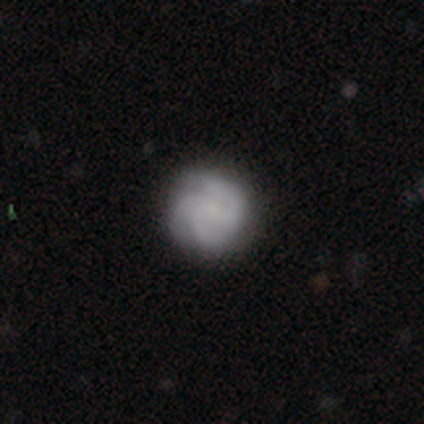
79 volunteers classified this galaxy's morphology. Smooth or featured? featured or disk (73%)
Edge-on disk? no (98%)
Bar? no (72%)
Spiral arms? yes (91%)
Spiral winding? medium (54%)
Spiral arm count? 3 (58%)
Bulge size? small (47%)
Merging? none (44%)